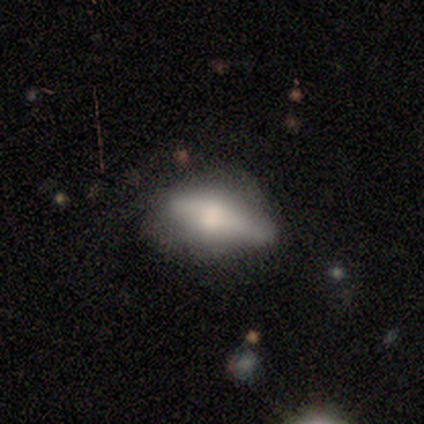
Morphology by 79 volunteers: Q: Smooth or featured?
A: featured or disk (47%); runner-up: smooth (46%)
Q: Edge-on disk?
A: yes (78%); runner-up: no (22%)
Q: Edge-on bulge?
A: rounded (86%); runner-up: boxy (14%)
Q: Merging?
A: minor disturbance (25%); runner-up: none (23%)